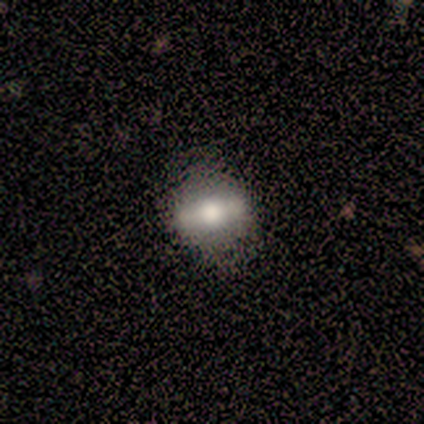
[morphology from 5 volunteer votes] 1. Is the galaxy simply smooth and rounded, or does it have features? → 60% smooth, 40% featured or disk, 0% star or artifact.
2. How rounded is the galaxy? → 67% in between, 33% cigar-shaped, 0% round.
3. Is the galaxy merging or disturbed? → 60% none, 20% minor disturbance, 20% major disturbance, 0% merger.